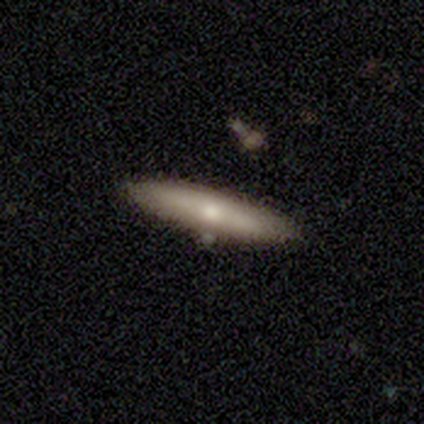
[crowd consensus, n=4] Q: Smooth or featured?
A: smooth (50%); tied with: featured or disk (50%)
Q: How rounded?
A: in between (50%); tied with: cigar-shaped (50%)
Q: Merging?
A: none (100%)